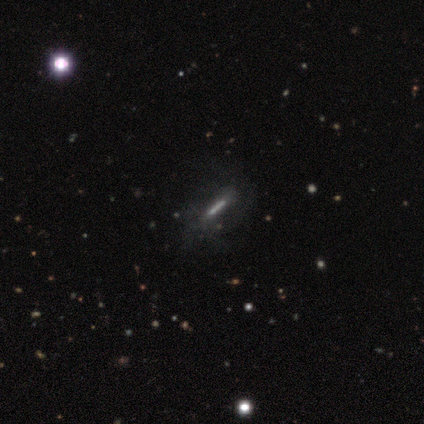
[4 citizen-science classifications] Smooth or featured?
  - featured or disk: 75% *
  - smooth: 25%
  - star or artifact: 0%
Edge-on disk?
  - no: 67% *
  - yes: 33%
Bar?
  - strong: 100% *
  - weak: 0%
  - no: 0%
Spiral arms?
  - yes: 100% *
  - no: 0%
Spiral winding?
  - medium: 50% * (tied)
  - loose: 50% * (tied)
  - tight: 0%
Spiral arm count?
  - 2: 50% * (tied)
  - can't tell: 50% * (tied)
  - 1: 0%
  - 3: 0%
  - 4: 0%
  - more than 4: 0%
Bulge size?
  - none: 100% *
  - dominant: 0%
  - large: 0%
  - moderate: 0%
  - small: 0%
Merging?
  - none: 75% *
  - minor disturbance: 25%
  - major disturbance: 0%
  - merger: 0%